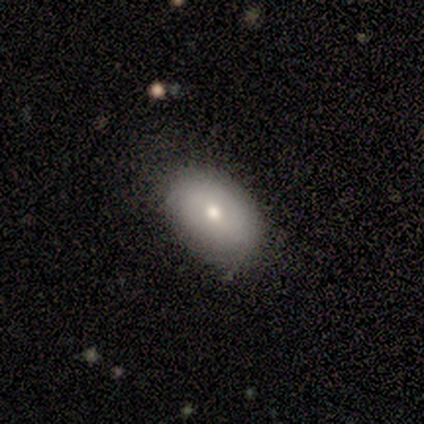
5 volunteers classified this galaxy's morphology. Smooth or featured: smooth — 60% (featured or disk — 40%)
How rounded: in between — 100%
Merging: none — 60% (minor disturbance — 20%)